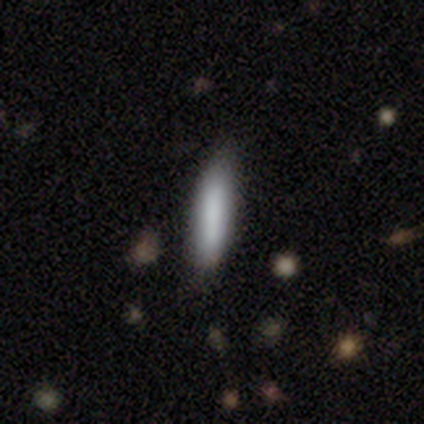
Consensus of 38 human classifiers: A smooth galaxy with no disk features (97%) that is cigar-shaped (92%).

Vote fractions:
- Smooth or featured? smooth: 97% / featured or disk: 3% / star or artifact: 0%
- How rounded? cigar-shaped: 92% / in between: 8% / round: 0%
- Merging? none: 87% / minor disturbance: 13% / major disturbance: 0% / merger: 0%